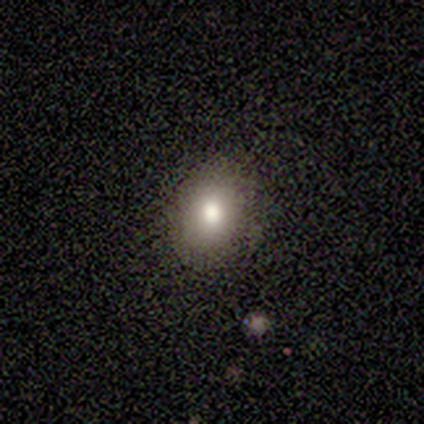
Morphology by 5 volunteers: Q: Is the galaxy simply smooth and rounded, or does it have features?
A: smooth — 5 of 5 (100%).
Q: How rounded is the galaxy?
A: round — 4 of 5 (80%).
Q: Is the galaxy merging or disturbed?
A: none — 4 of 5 (80%).